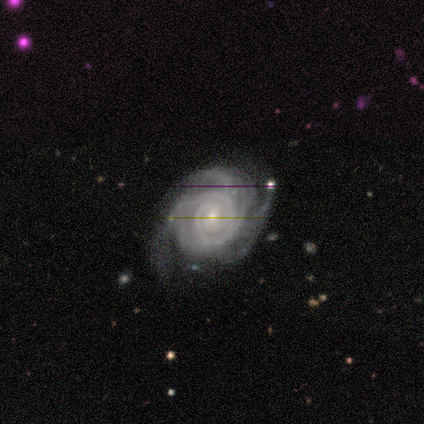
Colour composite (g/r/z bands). It shows a featured or disk galaxy (100%) with no bar (100%), 2 (30%, tied with 3) tight (80%) spiral arms (100%) and a small central bulge (80%). Merging: none (60%).